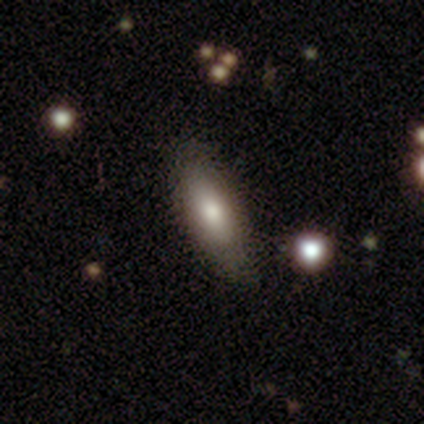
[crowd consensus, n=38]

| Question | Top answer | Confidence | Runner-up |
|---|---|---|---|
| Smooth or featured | smooth | 55% | featured or disk (34%) |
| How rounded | in between | 71% | cigar-shaped (29%) |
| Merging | none | 68% | minor disturbance (21%) |